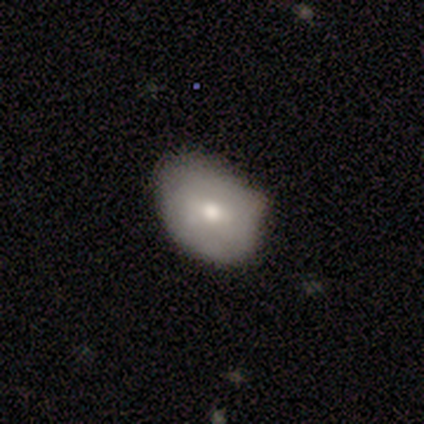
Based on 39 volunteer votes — Morphology: type=smooth (72%); roundness=in between (79%); merging=none (58%).